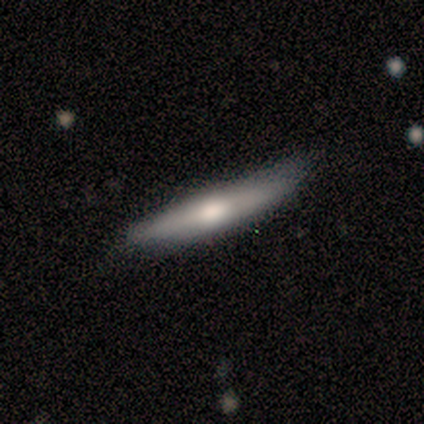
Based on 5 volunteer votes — A smooth galaxy with no disk features (60%) that is cigar-shaped (67%).

Vote fractions:
- Smooth or featured? smooth: 60% / featured or disk: 40% / star or artifact: 0%
- How rounded? cigar-shaped: 67% / in between: 33% / round: 0%
- Merging? minor disturbance: 60% / none: 40% / major disturbance: 0% / merger: 0%